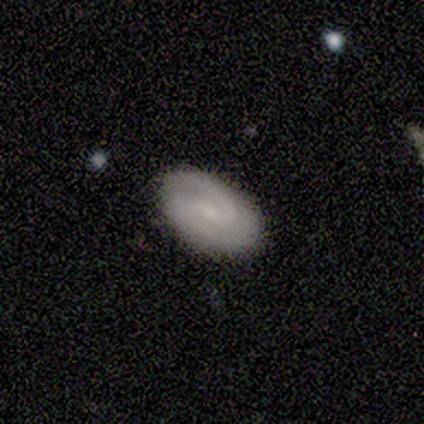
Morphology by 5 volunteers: Smooth or featured?
  - featured or disk: 100% *
  - smooth: 0%
  - star or artifact: 0%
Edge-on disk?
  - no: 100% *
  - yes: 0%
Bar?
  - weak: 80% *
  - strong: 20%
  - no: 0%
Spiral arms?
  - yes: 100% *
  - no: 0%
Spiral winding?
  - medium: 60% *
  - tight: 20%
  - loose: 20%
Spiral arm count?
  - 2: 100% *
  - 1: 0%
  - 3: 0%
  - 4: 0%
  - more than 4: 0%
  - can't tell: 0%
Bulge size?
  - small: 80% *
  - none: 20%
  - dominant: 0%
  - large: 0%
  - moderate: 0%
Merging?
  - none: 100% *
  - minor disturbance: 0%
  - major disturbance: 0%
  - merger: 0%